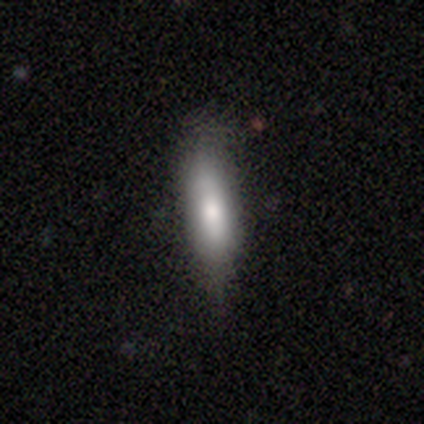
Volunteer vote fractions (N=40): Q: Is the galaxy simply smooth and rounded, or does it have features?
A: smooth — 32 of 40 (80%).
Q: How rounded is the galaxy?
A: cigar-shaped — 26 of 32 (81%).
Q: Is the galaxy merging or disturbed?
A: none — 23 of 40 (57%).